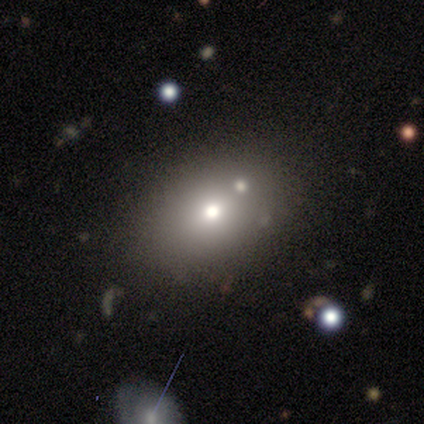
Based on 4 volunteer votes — smooth 75%, star or artifact 25%, featured or disk 0%. Down the decision tree: how rounded — in between (67%); merging — none (33%, tied with major disturbance and merger).